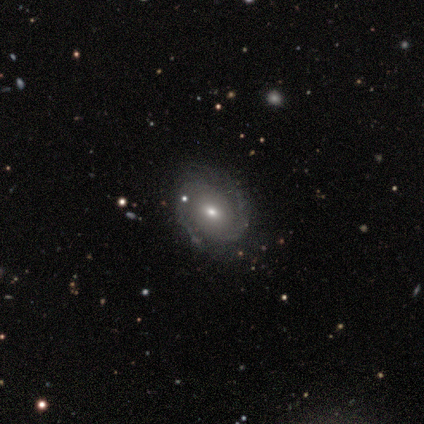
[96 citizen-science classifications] Morphology: type=featured or disk (83%); edge-on=no (99%); bar=no (67%); spiral arms=yes (90%); winding=tight (59%); arm count=2 (83%); bulge=moderate (51%); merging=none (73%).